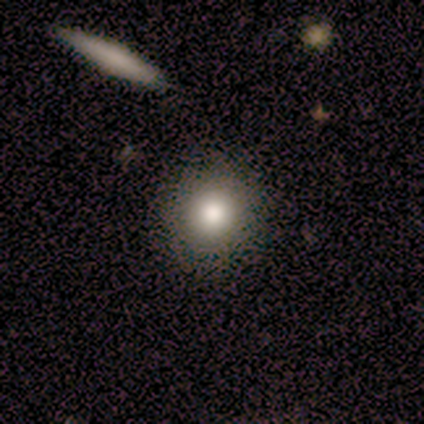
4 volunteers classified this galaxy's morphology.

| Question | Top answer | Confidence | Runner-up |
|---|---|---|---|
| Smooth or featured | smooth | 75% | star or artifact (25%) |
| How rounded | round | 100% | — |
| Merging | none | 100% | — |